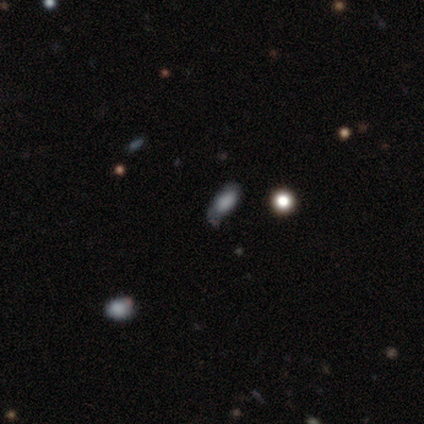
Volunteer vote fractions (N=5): A smooth galaxy with no disk features (80%) that is in between round and cigar-shaped (75%). Merging: none (60%).